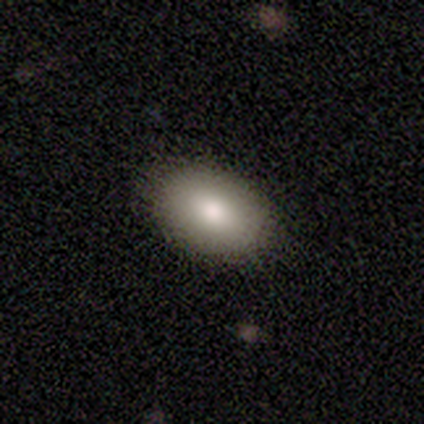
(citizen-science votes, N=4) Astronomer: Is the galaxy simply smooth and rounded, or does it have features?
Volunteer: smooth — 100%.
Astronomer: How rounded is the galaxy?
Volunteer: in between — 100%.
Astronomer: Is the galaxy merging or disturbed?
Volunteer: none — 100%.